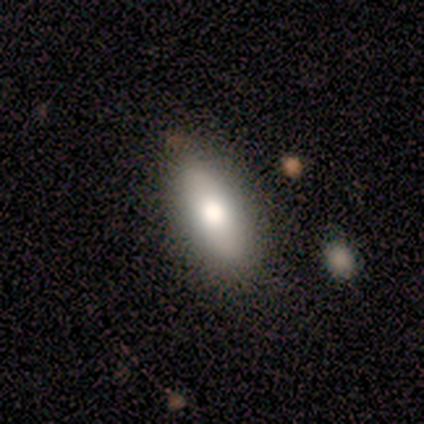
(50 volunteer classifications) smooth_or_featured: smooth (p=0.82) [alt: featured or disk p=0.16]
how_rounded: in between (p=0.83) [alt: cigar-shaped p=0.12]
merging: none (p=0.78) [alt: minor disturbance p=0.18]